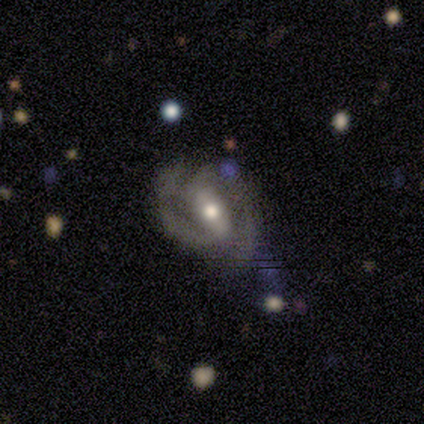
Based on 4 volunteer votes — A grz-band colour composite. It shows a featured or disk galaxy (100%) with no bar (50%), 2 (100%) medium (67%) spiral arms (75%) and a moderate central bulge (75%). Merging: minor disturbance (50%).